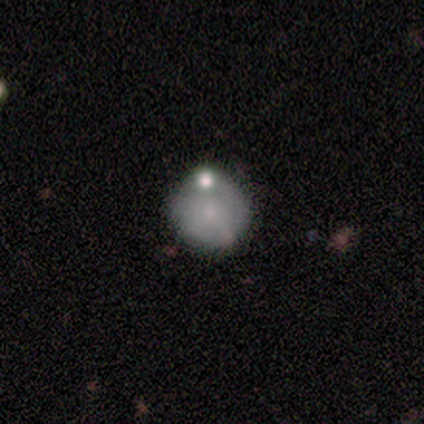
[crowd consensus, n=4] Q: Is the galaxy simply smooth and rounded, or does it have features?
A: smooth — 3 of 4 (75%).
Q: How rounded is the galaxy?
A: round — 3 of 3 (100%).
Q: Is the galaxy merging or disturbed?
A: major disturbance — 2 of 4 (50%, tied with merger).